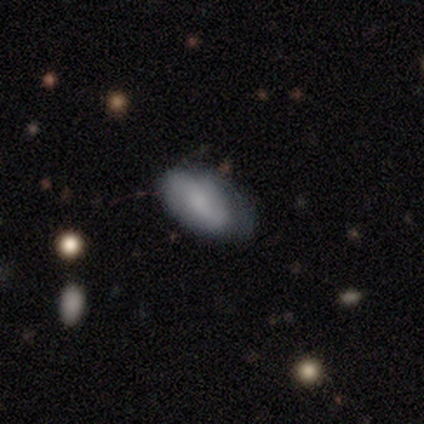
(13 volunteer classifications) This appears to be a smooth galaxy with no disk features (69%) that is in between round and cigar-shaped (100%). Merging: none (45%).